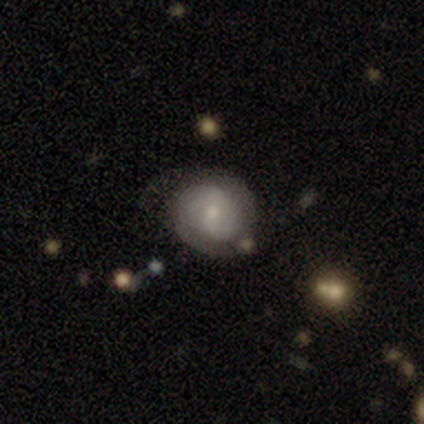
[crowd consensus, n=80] Smooth or featured? featured or disk (59%)
Edge-on disk? no (100%)
Bar? no (47%)
Spiral arms? yes (87%)
Spiral winding? tight (46%, tied with medium)
Spiral arm count? 2 (66%)
Bulge size? small (62%)
Merging? none (24%)